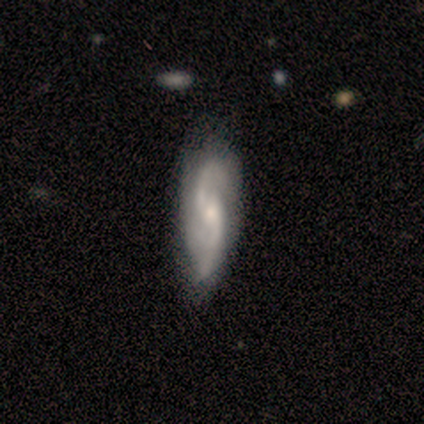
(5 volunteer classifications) Smooth or featured? featured or disk (60%)
Edge-on disk? no (100%)
Bar? weak (100%)
Spiral arms? yes (100%)
Spiral winding? loose (67%)
Spiral arm count? 2 (100%)
Bulge size? small (100%)
Merging? none (100%)